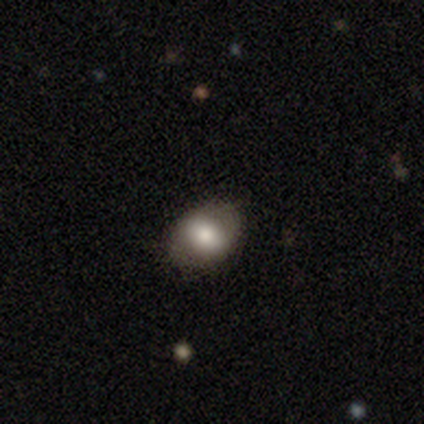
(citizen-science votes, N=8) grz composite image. It shows a smooth galaxy with no disk features (75%) that is in between round and cigar-shaped (100%). Merging: none (88%).